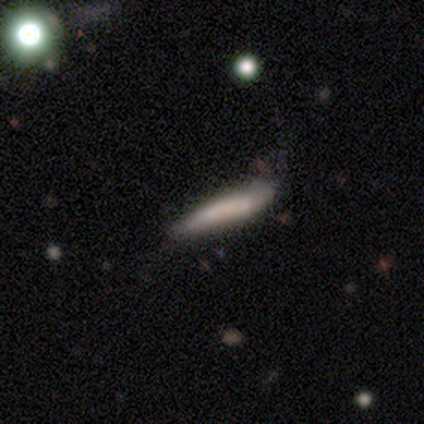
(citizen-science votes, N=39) Smooth or featured: smooth — 77% (featured or disk — 21%)
How rounded: cigar-shaped — 97% (in between — 3%)
Merging: none — 50% (minor disturbance — 37%)